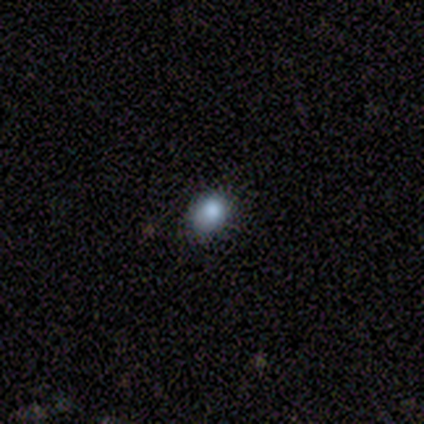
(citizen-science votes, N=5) Smooth or featured? smooth (80%)
How rounded? round (50%, tied with in between)
Merging? minor disturbance (75%)